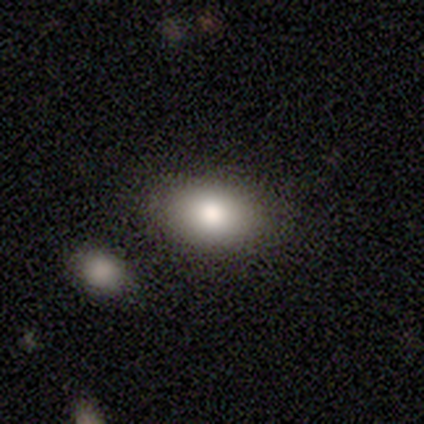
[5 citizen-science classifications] Smooth or featured?
  - smooth: 80% *
  - featured or disk: 20%
  - star or artifact: 0%
How rounded?
  - in between: 50% *
  - round: 25%
  - cigar-shaped: 25%
Merging?
  - none: 100% *
  - minor disturbance: 0%
  - major disturbance: 0%
  - merger: 0%